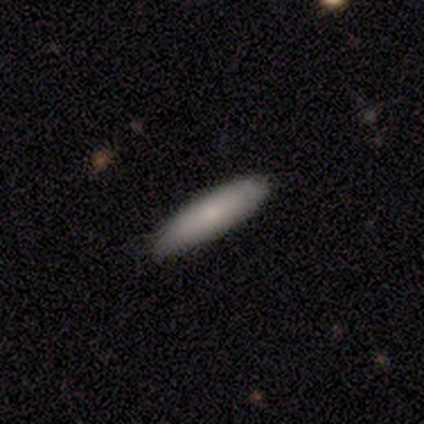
smooth_or_featured: smooth (p=0.86) [alt: featured or disk p=0.14]
how_rounded: cigar-shaped (p=0.69) [alt: in between p=0.28]
merging: none (p=0.59) [alt: minor disturbance p=0.14]